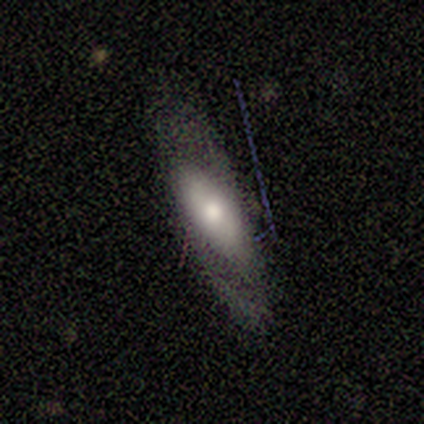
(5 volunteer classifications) smooth 60%, featured or disk 40%, star or artifact 0%. Down the decision tree: how rounded — in between (67%); merging — none (40%, tied with minor disturbance).